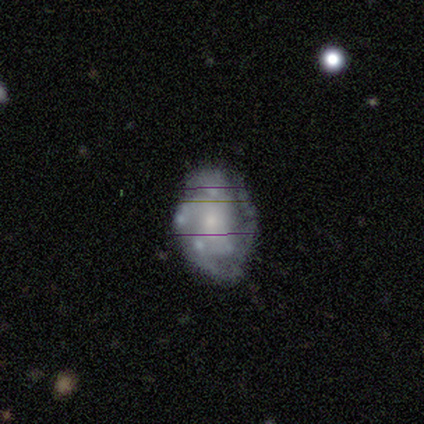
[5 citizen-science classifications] Overall: featured or disk (100%). Edge-on disk: no (80%). Bar: no (100%). Spiral arms: yes (75%). Spiral arm count: 4 (67%; 1 33%). Spiral winding: tight (67%; medium 33%). Bulge size: small (75%). Merging: none (80%).